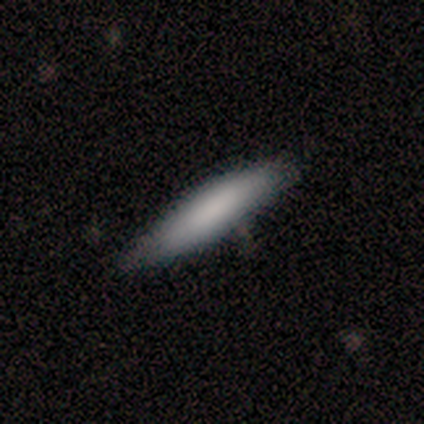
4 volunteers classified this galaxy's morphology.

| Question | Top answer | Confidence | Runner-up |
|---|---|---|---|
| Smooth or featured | smooth | 75% | featured or disk (25%) |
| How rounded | cigar-shaped | 67% | in between (33%) |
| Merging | none | 100% | — |